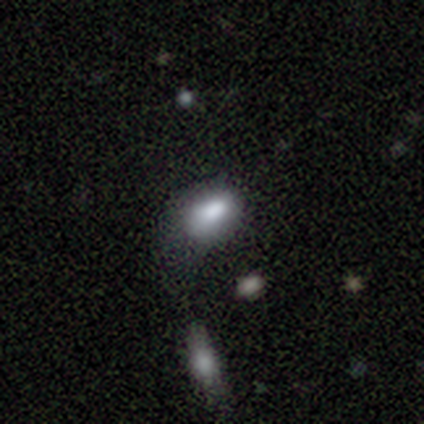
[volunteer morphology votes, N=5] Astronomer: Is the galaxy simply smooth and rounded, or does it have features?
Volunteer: smooth — 60% (runner-up: star or artifact, 40%).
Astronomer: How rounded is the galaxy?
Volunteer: in between — 100%.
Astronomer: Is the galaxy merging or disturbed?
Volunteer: major disturbance — 100%.